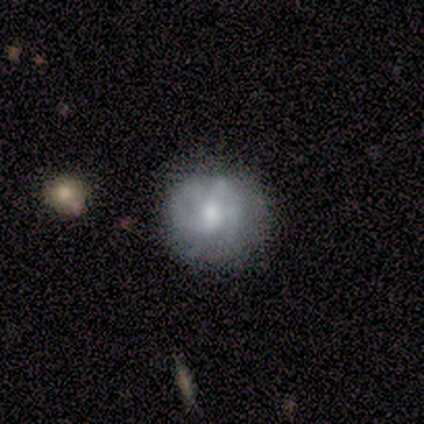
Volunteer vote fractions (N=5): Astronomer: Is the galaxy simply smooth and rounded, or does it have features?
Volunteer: featured or disk — 80%.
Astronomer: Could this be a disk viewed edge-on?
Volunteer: no — 100%.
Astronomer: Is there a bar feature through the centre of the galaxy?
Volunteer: weak — 50%, tied with no at 50%.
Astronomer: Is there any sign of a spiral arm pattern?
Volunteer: yes — 50%, tied with no at 50%.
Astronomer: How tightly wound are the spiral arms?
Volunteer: tight — 50%, tied with loose at 50%.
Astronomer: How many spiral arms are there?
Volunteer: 2 — 50%, tied with can't tell at 50%.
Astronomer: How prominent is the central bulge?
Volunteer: moderate — 50%, tied with small at 50%.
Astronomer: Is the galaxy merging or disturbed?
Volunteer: none — 100%.